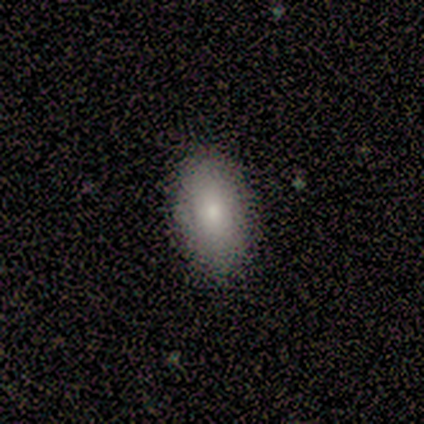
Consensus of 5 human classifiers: smooth_or_featured: smooth (p=0.80) [alt: star or artifact p=0.20]
how_rounded: in between (p=0.75) [alt: round p=0.25]
merging: none (p=0.75) [alt: minor disturbance p=0.25]